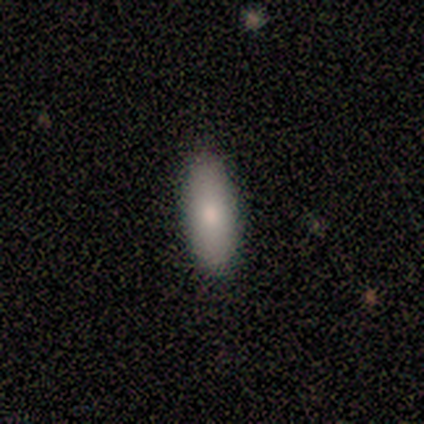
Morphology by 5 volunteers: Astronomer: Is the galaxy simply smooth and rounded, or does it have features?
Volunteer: smooth — 100%.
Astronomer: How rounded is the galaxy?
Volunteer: in between — 80%.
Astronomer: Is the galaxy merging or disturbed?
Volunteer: none — 100%.